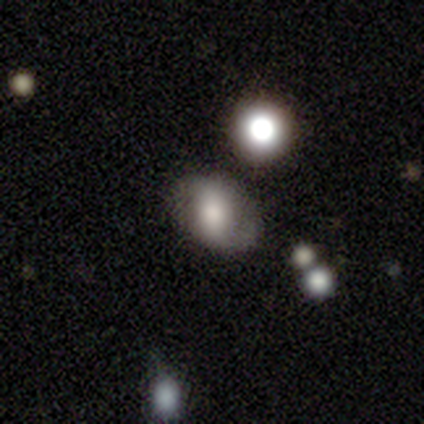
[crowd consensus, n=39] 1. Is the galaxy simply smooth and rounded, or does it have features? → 49% featured or disk, 33% smooth, 18% star or artifact.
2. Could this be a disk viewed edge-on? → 100% no, 0% yes.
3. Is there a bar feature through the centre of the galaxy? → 47% no, 26% strong, 26% weak.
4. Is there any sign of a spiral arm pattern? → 74% yes, 26% no.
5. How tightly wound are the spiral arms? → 36% medium (tied), 36% loose (tied), 29% tight.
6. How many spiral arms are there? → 93% 2, 7% can't tell, 0% 1, 0% 3, 0% 4, 0% more than 4.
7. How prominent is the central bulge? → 53% large, 21% moderate, 21% small, 5% dominant, 0% none.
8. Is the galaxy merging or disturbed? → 69% none, 25% minor disturbance, 6% major disturbance, 0% merger.